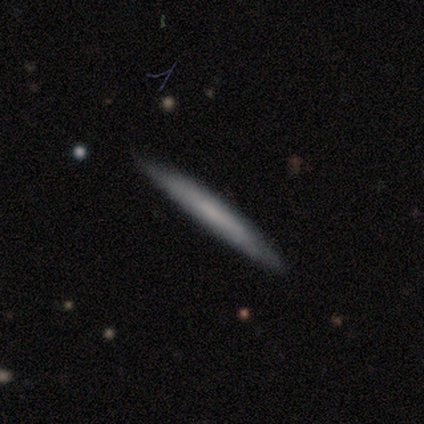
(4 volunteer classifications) Smooth or featured? smooth (75%)
How rounded? cigar-shaped (100%)
Merging? none (100%)